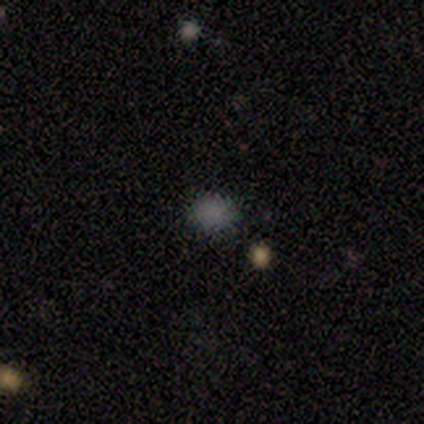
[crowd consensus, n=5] smooth_or_featured: smooth (p=0.60) [alt: featured or disk p=0.20]
how_rounded: in between (p=0.67) [alt: round p=0.33]
merging: none (p=1.00)